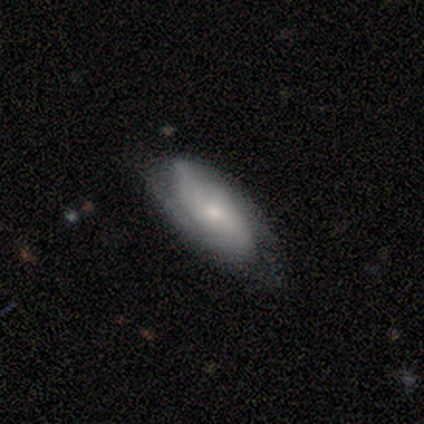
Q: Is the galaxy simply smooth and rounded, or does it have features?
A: featured or disk — 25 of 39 (64%).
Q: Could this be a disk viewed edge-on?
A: no — 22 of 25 (88%).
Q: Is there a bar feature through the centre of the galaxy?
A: no — 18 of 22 (82%).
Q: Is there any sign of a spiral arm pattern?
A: yes — 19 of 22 (86%).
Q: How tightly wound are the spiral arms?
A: tight — 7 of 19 (37%).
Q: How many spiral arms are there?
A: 2 — 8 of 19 (42%).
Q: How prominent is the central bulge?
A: small — 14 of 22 (64%).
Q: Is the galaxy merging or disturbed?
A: none — 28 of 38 (74%).